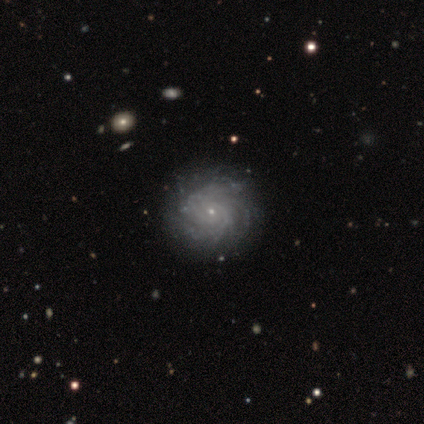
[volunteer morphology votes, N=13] smooth-or-featured: featured or disk: 85% | star or artifact: 15% | smooth: 0%
  disk-edge-on: no: 100% | yes: 0%
    bar: no: 91% | strong: 9% | weak: 0%
    has-spiral-arms: yes: 100% | no: 0%
      spiral-winding: tight: 64% | medium: 18% | loose: 18%
      spiral-arm-count: can't tell: 73% | more than 4: 18% | 3: 9% | 1: 0% | 2: 0% | 4: 0%
    bulge-size: small: 82% | large: 9% | moderate: 9% | dominant: 0% | none: 0%
  merging: none: 100% | minor disturbance: 0% | major disturbance: 0% | merger: 0%